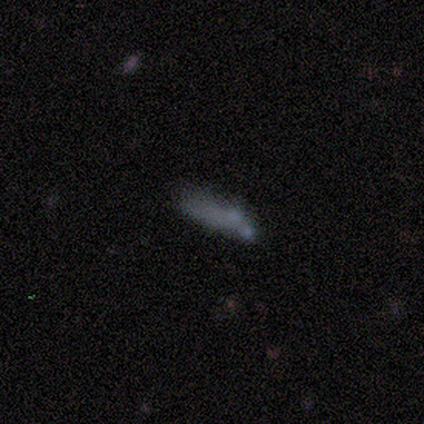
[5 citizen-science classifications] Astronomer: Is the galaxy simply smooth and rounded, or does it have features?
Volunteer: smooth — 60%.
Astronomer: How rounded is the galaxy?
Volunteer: round — 33%, tied with in between and cigar-shaped at 33%.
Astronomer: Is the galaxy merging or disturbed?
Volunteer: none — 75%.